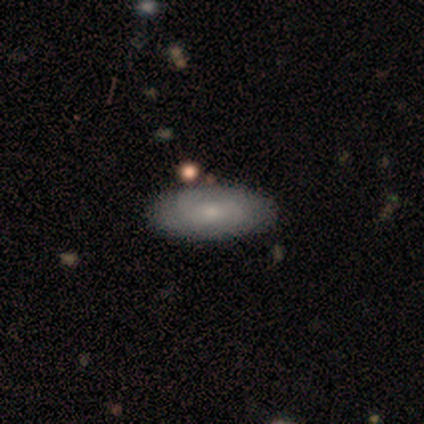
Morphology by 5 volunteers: smooth 40% (tied), featured or disk 40% (tied), star or artifact 20%. Down the decision tree: how rounded — in between (100%); merging — none (100%).